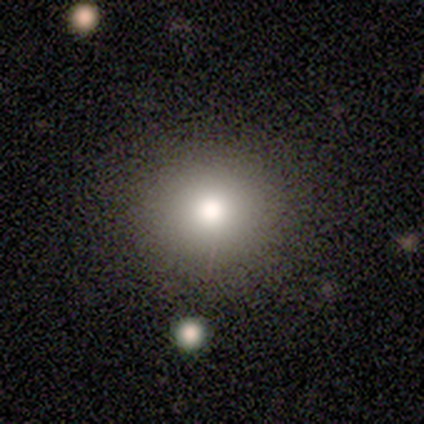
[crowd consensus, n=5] Overall: smooth (100%). How rounded: round (100%). Merging: none (100%).